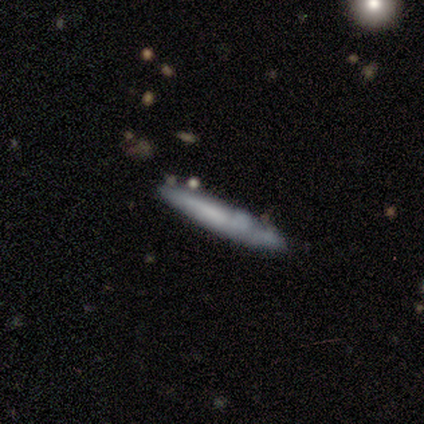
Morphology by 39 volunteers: Smooth or featured? featured or disk (49%)
Edge-on disk? yes (74%)
Edge-on bulge? none (79%)
Merging? none (73%)